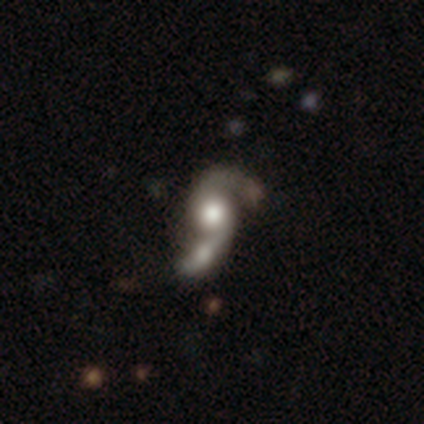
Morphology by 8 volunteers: Q: Smooth or featured?
A: featured or disk (75%); runner-up: smooth (12%)
Q: Edge-on disk?
A: no (100%)
Q: Bar?
A: no (83%); runner-up: strong (17%)
Q: Spiral arms?
A: yes (100%)
Q: Spiral winding?
A: loose (67%); runner-up: tight (17%)
Q: Spiral arm count?
A: 2 (83%); runner-up: 1 (17%)
Q: Bulge size?
A: large (50%); runner-up: moderate (33%)
Q: Merging?
A: minor disturbance (29%); tied with: major disturbance (29%); merger (29%)